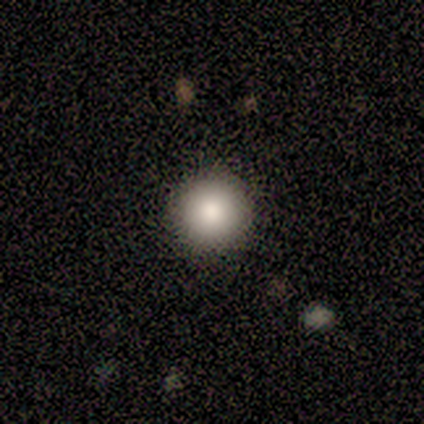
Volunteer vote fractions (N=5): A smooth galaxy with no disk features (80%) that is round (100%).

Vote fractions:
- Smooth or featured? smooth: 80% / featured or disk: 20% / star or artifact: 0%
- How rounded? round: 100% / in between: 0% / cigar-shaped: 0%
- Merging? none: 80% / major disturbance: 20% / minor disturbance: 0% / merger: 0%